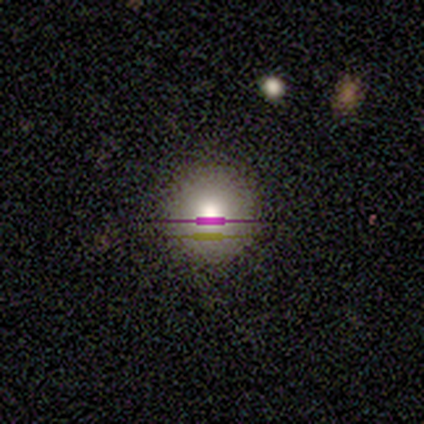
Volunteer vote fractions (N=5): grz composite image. It shows a smooth galaxy with no disk features (40%, tied with featured or disk) that is round (100%). Merging: none (75%).